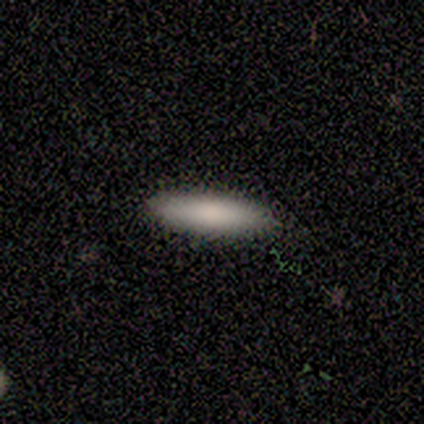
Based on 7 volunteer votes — smooth 100%, featured or disk 0%, star or artifact 0%. Down the decision tree: how rounded — cigar-shaped (71%); merging — none (86%).